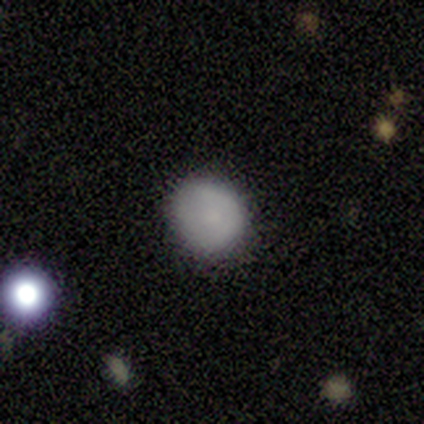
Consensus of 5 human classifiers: Volunteers were most divided on "smooth or featured": smooth: 60%, star or artifact: 40%, featured or disk: 0%. More confident: merging — none (100%); how rounded — round (67%).